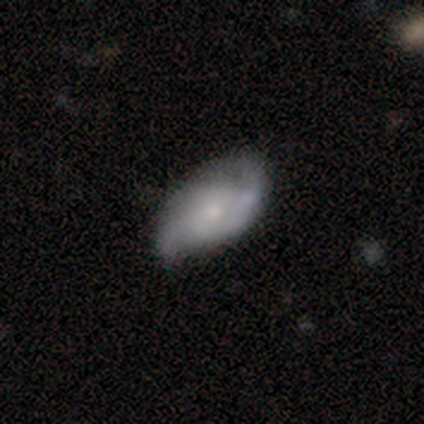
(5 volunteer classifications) A featured or disk galaxy (80%) with no bar (75%), 2 (100%) medium (67%) spiral arms (75%) and a small central bulge (75%). Merging: minor disturbance (60%).